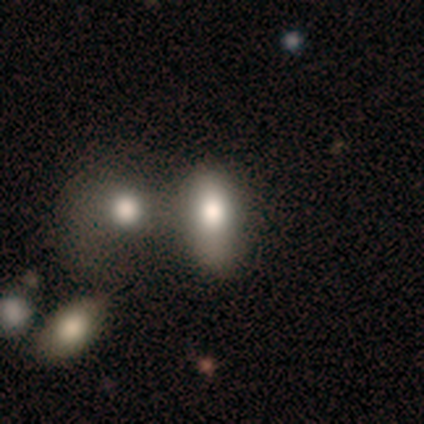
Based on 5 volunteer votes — Smooth or featured? 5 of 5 (100%) said smooth. How rounded? 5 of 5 (100%) said in between. Merging? 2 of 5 (40%, tied with merger) said none.